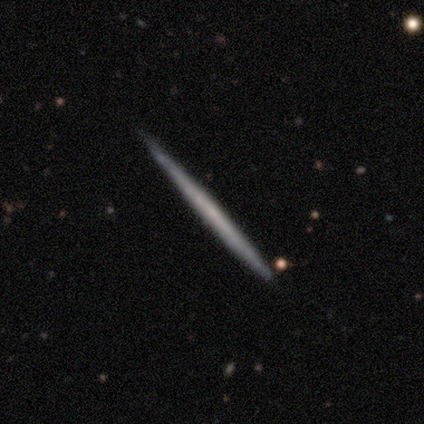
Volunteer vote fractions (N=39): smooth-or-featured: featured or disk: 67% | smooth: 31% | star or artifact: 3%
  disk-edge-on: yes: 100% | no: 0%
    edge-on-bulge: none: 100% | boxy: 0% | rounded: 0%
  merging: none: 95% | minor disturbance: 5% | major disturbance: 0% | merger: 0%